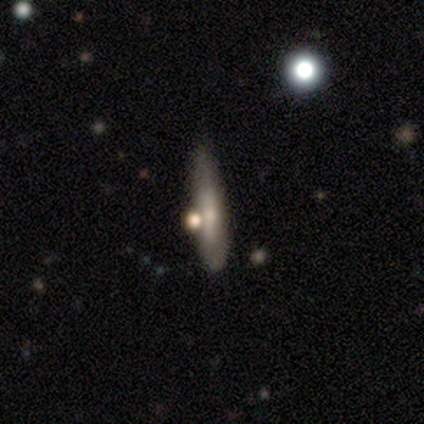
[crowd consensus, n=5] Morphology: type=featured or disk (80%); edge-on=yes (75%); edge-on bulge=rounded (67%); merging=none (80%).